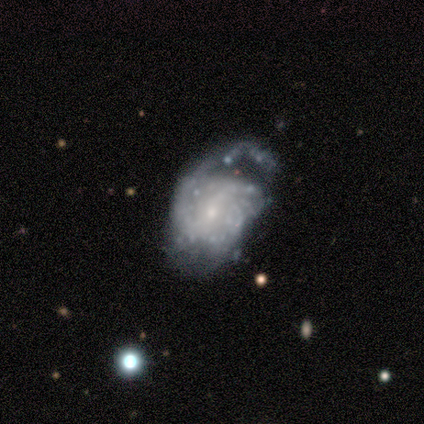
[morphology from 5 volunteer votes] This appears to be a smooth galaxy with no disk features (40%, tied with featured or disk) that is in between round and cigar-shaped (100%). Merging: major disturbance (75%).